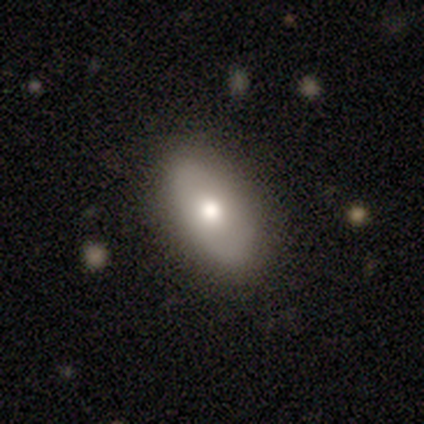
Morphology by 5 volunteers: smooth-or-featured: smooth: 80% | featured or disk: 20% | star or artifact: 0%
  how-rounded: in between: 100% | round: 0% | cigar-shaped: 0%
  merging: none: 100% | minor disturbance: 0% | major disturbance: 0% | merger: 0%